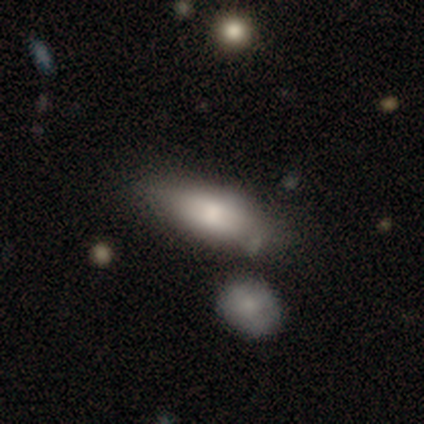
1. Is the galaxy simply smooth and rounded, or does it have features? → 74% smooth, 20% featured or disk, 7% star or artifact.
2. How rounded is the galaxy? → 72% in between, 25% cigar-shaped, 3% round.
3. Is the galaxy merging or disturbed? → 57% none, 28% minor disturbance, 11% merger, 4% major disturbance.